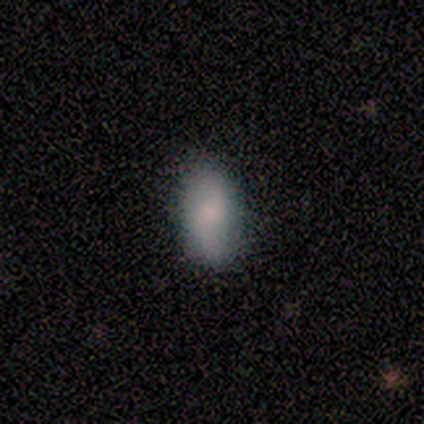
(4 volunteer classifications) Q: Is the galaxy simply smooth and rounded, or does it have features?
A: featured or disk — 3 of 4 (75%).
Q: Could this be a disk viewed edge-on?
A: no — 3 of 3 (100%).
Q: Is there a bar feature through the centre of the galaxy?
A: no — 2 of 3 (67%).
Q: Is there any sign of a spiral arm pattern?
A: yes — 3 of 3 (100%).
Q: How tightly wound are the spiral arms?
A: loose — 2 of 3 (67%).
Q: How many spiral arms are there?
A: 2 — 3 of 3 (100%).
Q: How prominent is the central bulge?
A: moderate — 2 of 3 (67%).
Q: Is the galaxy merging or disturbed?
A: none — 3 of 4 (75%).